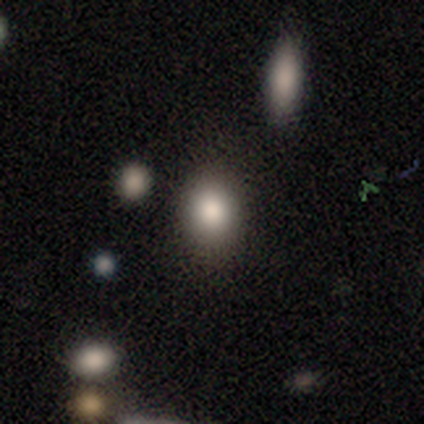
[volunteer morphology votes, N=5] Smooth or featured? smooth (80%)
How rounded? round (75%)
Merging? none (100%)